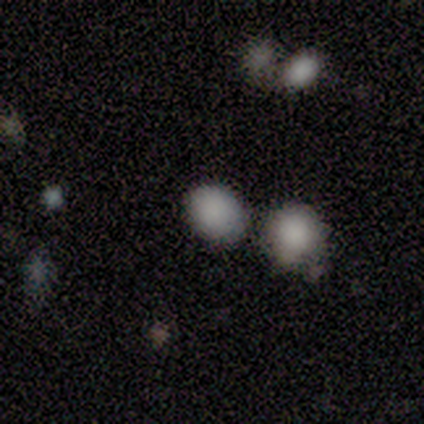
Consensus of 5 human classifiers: This appears to be a smooth galaxy with no disk features (80%) that is round (50%, tied with in between). Merging: merger (50%).